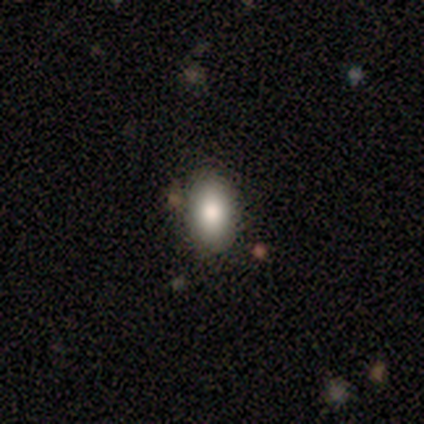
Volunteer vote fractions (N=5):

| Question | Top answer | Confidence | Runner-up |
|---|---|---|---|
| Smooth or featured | smooth | 80% | star or artifact (20%) |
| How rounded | in between | 75% | round (25%) |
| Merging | none | 100% | — |